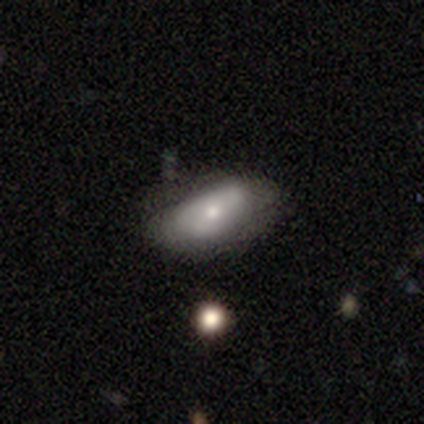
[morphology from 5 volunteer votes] smooth_or_featured: smooth (p=1.00)
how_rounded: in between (p=1.00)
merging: none (p=0.60) [alt: minor disturbance p=0.20]